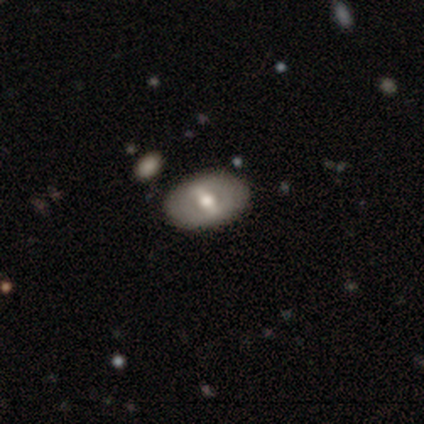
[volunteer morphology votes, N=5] Smooth or featured? featured or disk (80%)
Edge-on disk? no (75%)
Bar? weak (67%)
Spiral arms? no (67%)
Bulge size? moderate (67%)
Merging? none (80%)